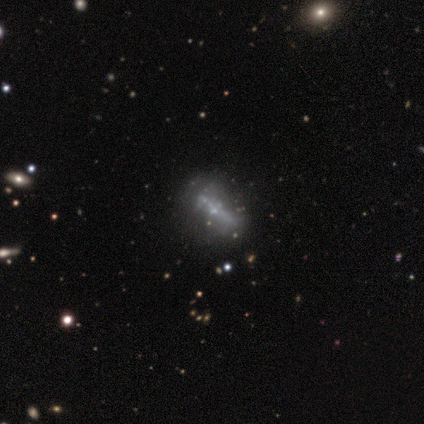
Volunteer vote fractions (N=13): A featured or disk galaxy (62%) with no bar (60%), no spiral arms (100%) and a small central bulge (60%). Merging: none (42%).